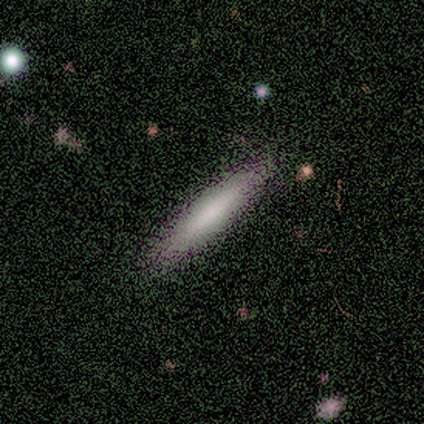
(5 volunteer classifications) Smooth or featured?
  - smooth: 100% *
  - featured or disk: 0%
  - star or artifact: 0%
How rounded?
  - cigar-shaped: 100% *
  - round: 0%
  - in between: 0%
Merging?
  - none: 80% *
  - minor disturbance: 20%
  - major disturbance: 0%
  - merger: 0%